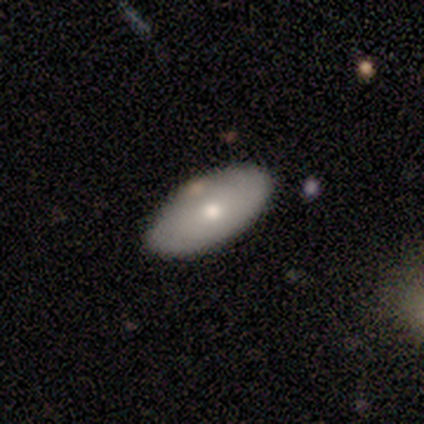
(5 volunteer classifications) smooth-or-featured: smooth: 60% | featured or disk: 40% | star or artifact: 0%
  how-rounded: in between: 67% | round: 33% | cigar-shaped: 0%
  merging: none: 80% | major disturbance: 20% | minor disturbance: 0% | merger: 0%